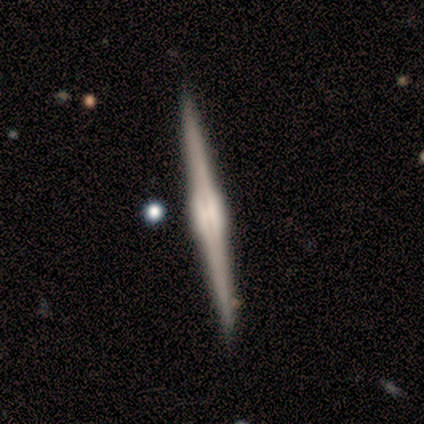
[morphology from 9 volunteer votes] smooth_or_featured: featured or disk (p=1.00)
disk_edge_on: yes (p=1.00)
edge_on_bulge: rounded (p=0.56) [alt: boxy p=0.44]
merging: none (p=1.00)